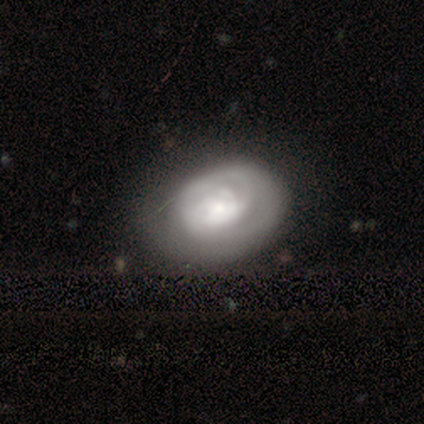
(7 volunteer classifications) Smooth or featured? featured or disk (57%)
Edge-on disk? no (100%)
Bar? no (75%)
Spiral arms? yes (50%, tied with no)
Spiral winding? tight (100%)
Spiral arm count? more than 4 (50%, tied with can't tell)
Bulge size? large (50%)
Merging? none (71%)